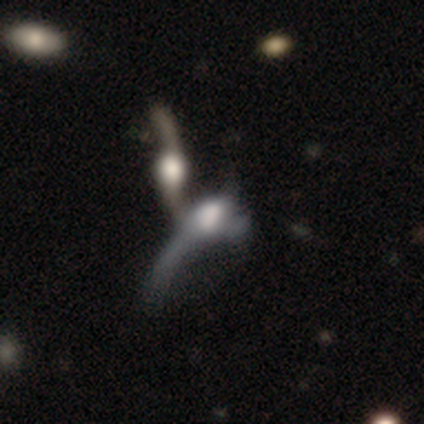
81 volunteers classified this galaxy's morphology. smooth_or_featured: featured or disk (p=0.77) [alt: smooth p=0.17]
disk_edge_on: no (p=0.77) [alt: yes p=0.23]
bar: no (p=0.75) [alt: weak p=0.17]
has_spiral_arms: yes (p=0.50) [tied with: no p=0.50]
spiral_winding: loose (p=0.92) [alt: tight p=0.08]
spiral_arm_count: 2 (p=0.42) [alt: 1 p=0.29]
bulge_size: large (p=0.42) [alt: moderate p=0.29]
merging: merger (p=0.72) [alt: major disturbance p=0.18]